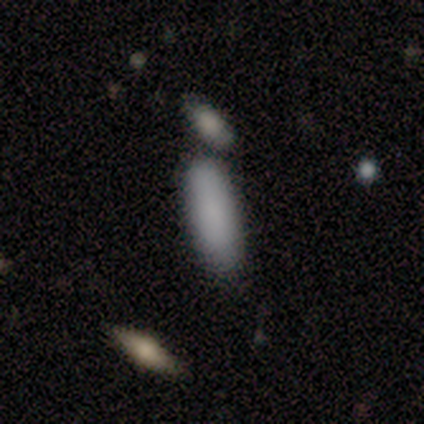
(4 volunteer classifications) Volunteers were most divided on "merging": none: 50%, minor disturbance: 25%, merger: 25%, major disturbance: 0%. More confident: smooth or featured — smooth (100%); how rounded — in between (75%).